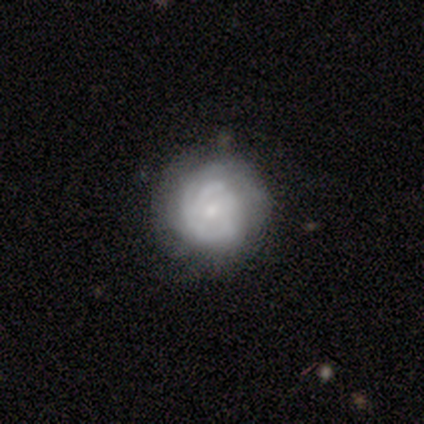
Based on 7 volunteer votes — Smooth or featured? featured or disk (43%)
Edge-on disk? no (100%)
Bar? no (67%)
Spiral arms? yes (67%)
Spiral winding? tight (50%, tied with medium)
Spiral arm count? 2 (50%, tied with can't tell)
Bulge size? small (100%)
Merging? none (100%)